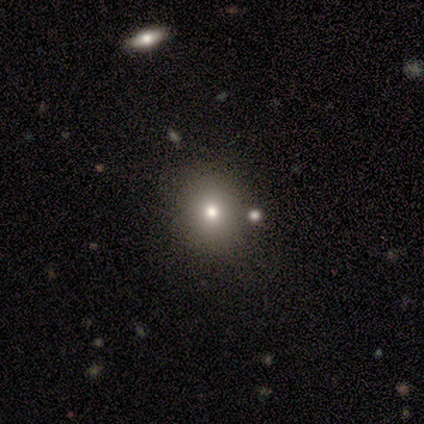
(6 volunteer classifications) A smooth galaxy with no disk features (50%) that is round (67%). Merging: none (75%).